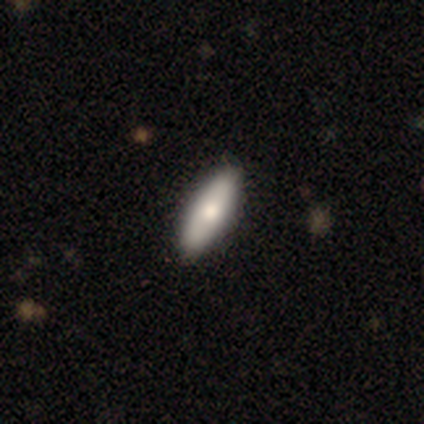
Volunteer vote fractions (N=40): smooth_or_featured: smooth (p=0.75) [alt: featured or disk p=0.25]
how_rounded: in between (p=0.67) [alt: cigar-shaped p=0.33]
merging: none (p=0.85)